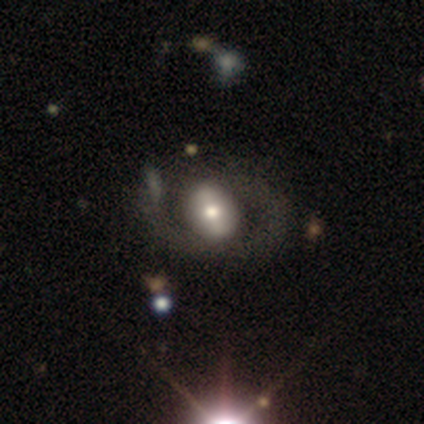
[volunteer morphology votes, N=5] smooth-or-featured: featured or disk: 60% | smooth: 20% | star or artifact: 20%
  disk-edge-on: no: 100% | yes: 0%
    bar: strong: 100% | weak: 0% | no: 0%
    has-spiral-arms: no: 67% | yes: 33%
    bulge-size: moderate: 100% | dominant: 0% | large: 0% | small: 0% | none: 0%
  merging: none: 50% (tied) | merger: 50% (tied) | minor disturbance: 0% | major disturbance: 0%